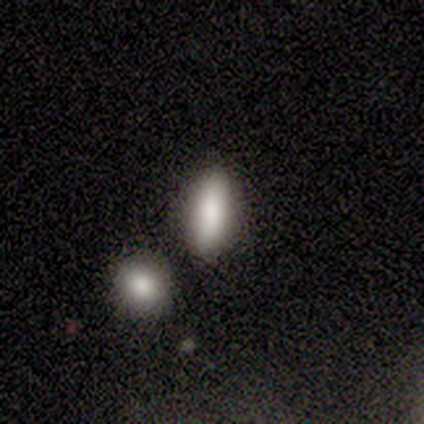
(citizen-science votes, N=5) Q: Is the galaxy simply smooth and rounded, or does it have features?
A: smooth — 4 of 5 (80%).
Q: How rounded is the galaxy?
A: cigar-shaped — 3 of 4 (75%).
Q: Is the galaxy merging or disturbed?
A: none — 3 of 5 (60%).